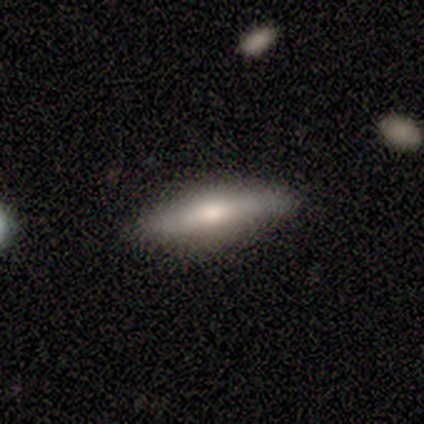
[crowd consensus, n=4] Smooth or featured? 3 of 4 (75%) said featured or disk. Edge-on disk? 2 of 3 (67%) said yes. Edge-on bulge? 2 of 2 (100%) said rounded. Merging? 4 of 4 (100%) said none.